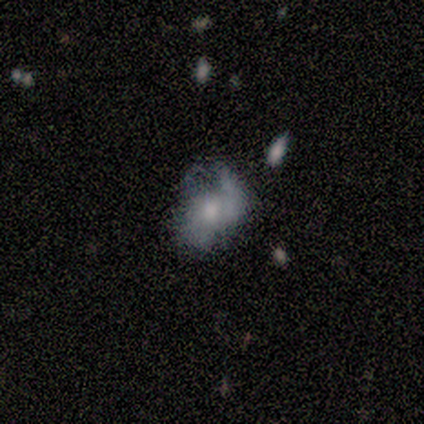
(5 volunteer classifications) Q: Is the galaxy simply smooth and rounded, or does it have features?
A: smooth — 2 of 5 (40%, tied with featured or disk).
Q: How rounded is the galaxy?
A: in between — 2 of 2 (100%).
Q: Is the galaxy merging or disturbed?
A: none — 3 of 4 (75%).